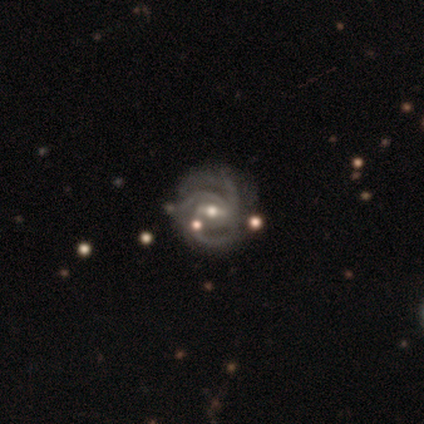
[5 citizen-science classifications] Smooth or featured? 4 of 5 (80%) said featured or disk. Edge-on disk? 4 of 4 (100%) said no. Bar? 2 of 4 (50%) said strong. Spiral arms? 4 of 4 (100%) said yes. Spiral winding? 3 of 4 (75%) said tight. Spiral arm count? 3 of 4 (75%) said 3. Bulge size? 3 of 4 (75%) said small. Merging? 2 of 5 (40%) said minor disturbance.